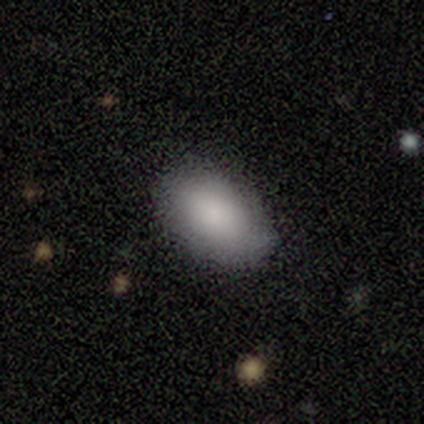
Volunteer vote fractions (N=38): Morphology: type=smooth (82%); roundness=in between (97%); merging=none (81%).